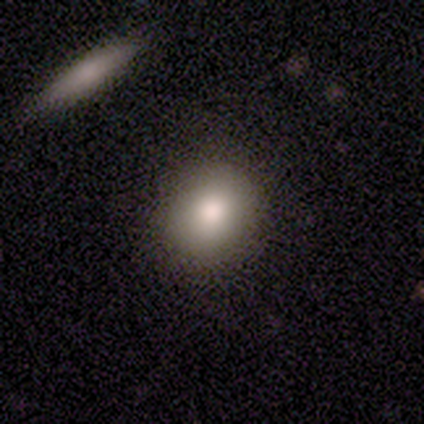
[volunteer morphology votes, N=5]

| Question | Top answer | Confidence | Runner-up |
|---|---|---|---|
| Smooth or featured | smooth | 100% | — |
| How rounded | round | 80% | in between (20%) |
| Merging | none | 100% | — |